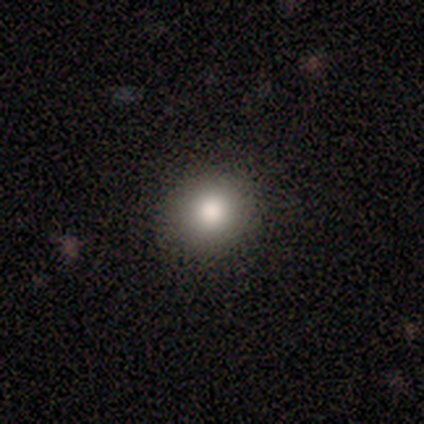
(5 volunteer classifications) This appears to be a smooth galaxy with no disk features (40%, tied with featured or disk) that is round (100%). Merging: none (75%).